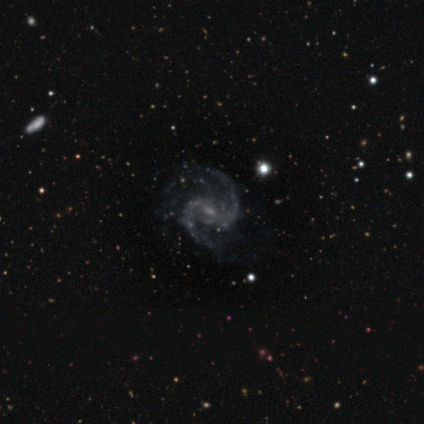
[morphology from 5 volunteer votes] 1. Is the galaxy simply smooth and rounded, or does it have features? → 100% featured or disk, 0% smooth, 0% star or artifact.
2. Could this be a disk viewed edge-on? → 100% no, 0% yes.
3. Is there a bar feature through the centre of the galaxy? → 60% weak, 40% no, 0% strong.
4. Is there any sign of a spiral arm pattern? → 100% yes, 0% no.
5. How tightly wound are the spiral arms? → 60% medium, 20% tight, 20% loose.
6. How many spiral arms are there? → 40% 2, 20% 3, 20% more than 4, 20% can't tell, 0% 1, 0% 4.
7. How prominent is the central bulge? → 100% small, 0% dominant, 0% large, 0% moderate, 0% none.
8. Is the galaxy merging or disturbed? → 60% none, 40% minor disturbance, 0% major disturbance, 0% merger.